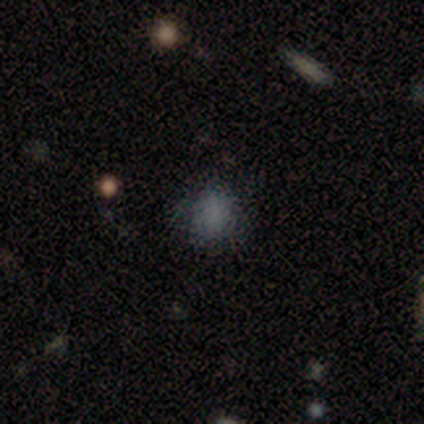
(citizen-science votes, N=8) Smooth or featured? smooth (100%)
How rounded? round (88%)
Merging? none (88%)